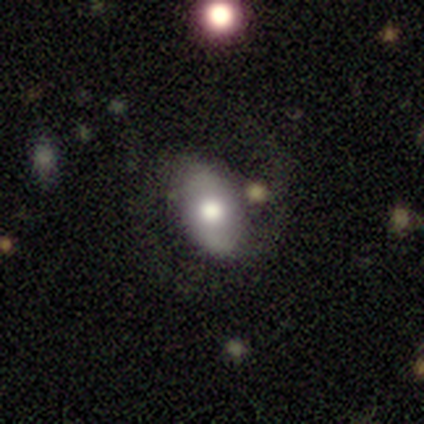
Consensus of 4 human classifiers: A featured or disk galaxy (75%) with a strong bar (50%, tied with weak), 2 (100%) medium (100%) spiral arms (100%) and a dominant central bulge (50%, tied with small). Merging: none (75%).